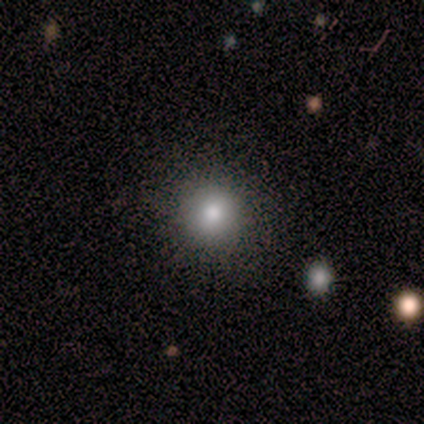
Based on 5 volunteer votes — Smooth or featured?
  - smooth: 80% *
  - star or artifact: 20%
  - featured or disk: 0%
How rounded?
  - round: 100% *
  - in between: 0%
  - cigar-shaped: 0%
Merging?
  - none: 100% *
  - minor disturbance: 0%
  - major disturbance: 0%
  - merger: 0%